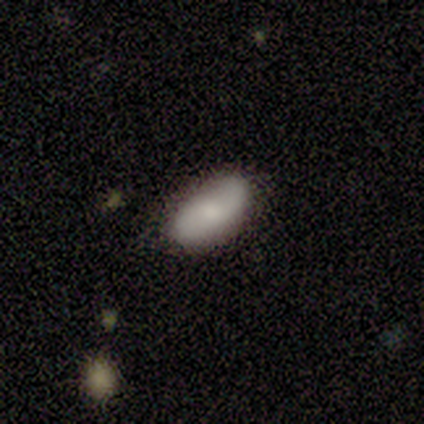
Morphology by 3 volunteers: Volunteers were most divided on "merging" (3-way tie): none: 33%, minor disturbance: 33%, merger: 33%, major disturbance: 0%. More confident: how rounded — in between (100%); smooth or featured — smooth (67%).